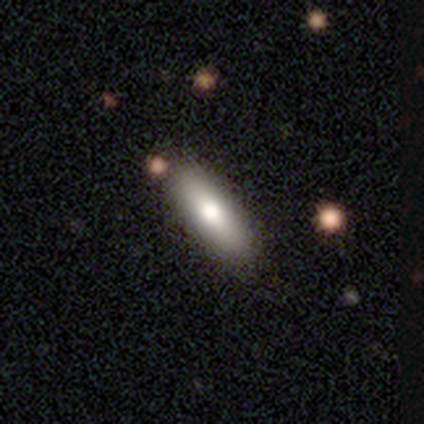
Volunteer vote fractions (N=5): smooth-or-featured: smooth: 100% | featured or disk: 0% | star or artifact: 0%
  how-rounded: cigar-shaped: 100% | round: 0% | in between: 0%
  merging: none: 80% | minor disturbance: 20% | major disturbance: 0% | merger: 0%